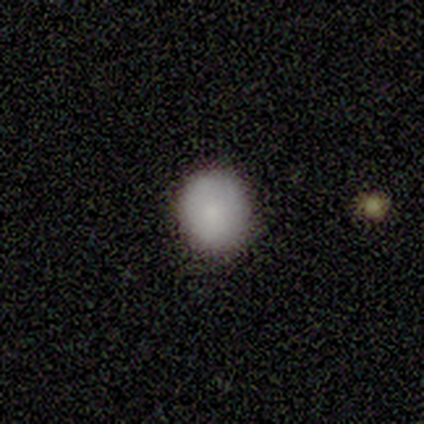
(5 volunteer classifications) smooth 100%, featured or disk 0%, star or artifact 0%. Down the decision tree: how rounded — in between (60%); merging — none (80%).